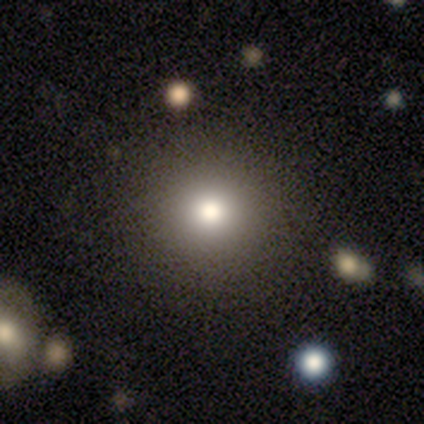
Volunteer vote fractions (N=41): Smooth or featured?
  - smooth: 76% *
  - star or artifact: 20%
  - featured or disk: 5%
How rounded?
  - round: 100% *
  - in between: 0%
  - cigar-shaped: 0%
Merging?
  - none: 52% *
  - minor disturbance: 3%
  - merger: 3%
  - major disturbance: 0%